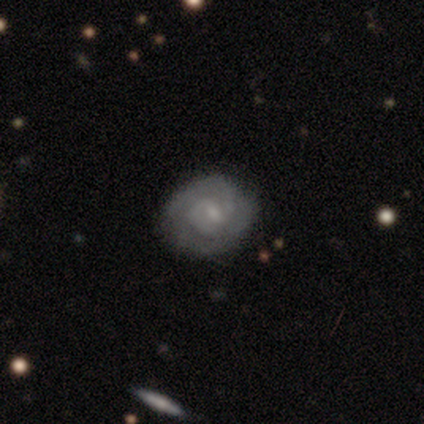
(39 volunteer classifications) Smooth or featured? 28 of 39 (72%) said featured or disk. Edge-on disk? 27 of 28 (96%) said no. Bar? 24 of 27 (89%) said weak. Spiral arms? 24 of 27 (89%) said yes. Spiral winding? 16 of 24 (67%) said tight. Spiral arm count? 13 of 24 (54%) said 2. Bulge size? 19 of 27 (70%) said small. Merging? 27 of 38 (71%) said none.